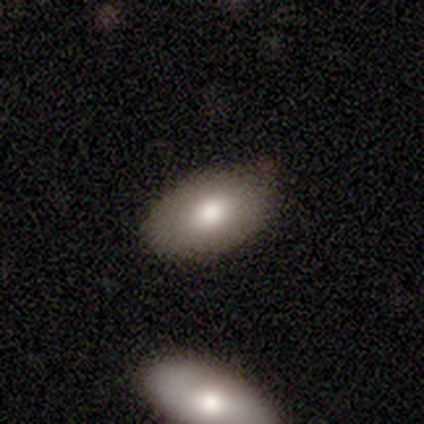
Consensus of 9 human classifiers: smooth 78%, featured or disk 22%, star or artifact 0%. Down the decision tree: how rounded — in between (100%); merging — none (78%).